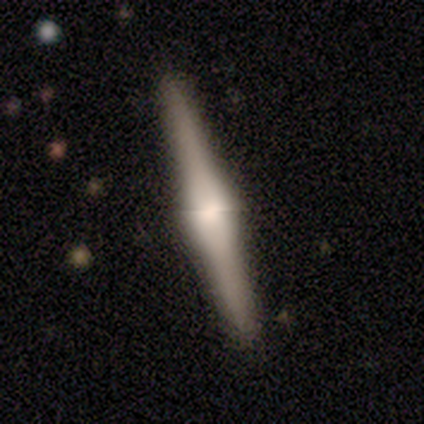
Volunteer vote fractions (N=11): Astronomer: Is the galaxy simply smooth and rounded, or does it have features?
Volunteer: featured or disk — 73%.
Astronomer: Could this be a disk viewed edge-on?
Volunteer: yes — 88%.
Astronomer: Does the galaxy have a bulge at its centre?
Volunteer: boxy — 57% (runner-up: rounded, 43%).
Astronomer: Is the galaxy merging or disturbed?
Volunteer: none — 100%.